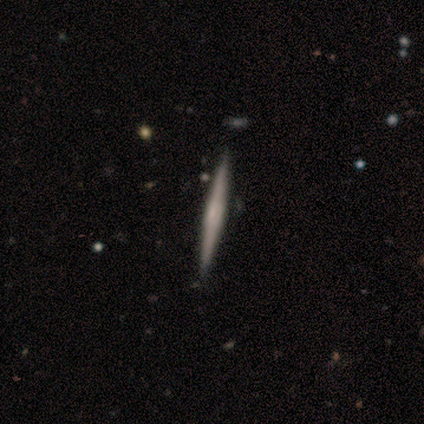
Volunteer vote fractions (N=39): Smooth or featured? featured or disk (72%)
Edge-on disk? yes (96%)
Edge-on bulge? rounded (44%)
Merging? none (59%)